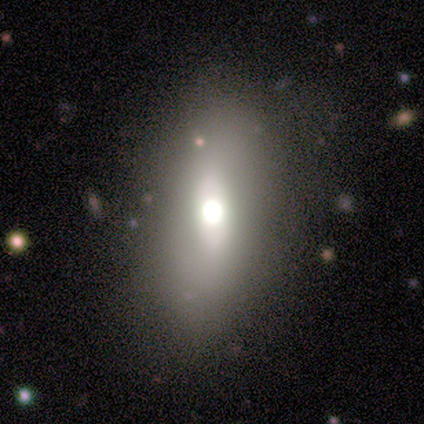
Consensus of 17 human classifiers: Smooth or featured? smooth (53%)
How rounded? in between (67%)
Merging? none (69%)